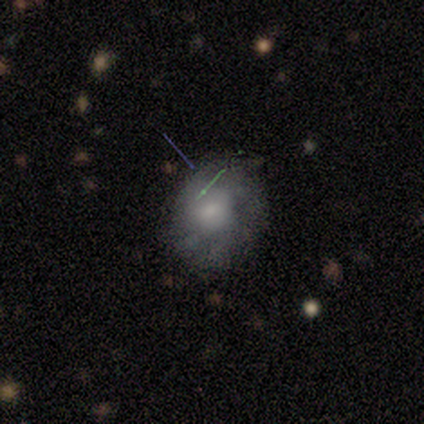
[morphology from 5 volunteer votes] This appears to be a featured or disk galaxy (60%) with no bar (67%), tight (100%) spiral arms (67%) and a moderate central bulge (67%). Merging: none (80%).